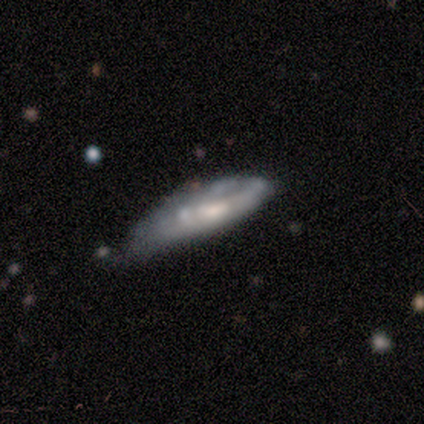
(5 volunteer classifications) smooth-or-featured: featured or disk: 60% | smooth: 40% | star or artifact: 0%
  disk-edge-on: yes: 67% | no: 33%
    edge-on-bulge: rounded: 100% | boxy: 0% | none: 0%
  merging: minor disturbance: 60% | major disturbance: 40% | none: 0% | merger: 0%